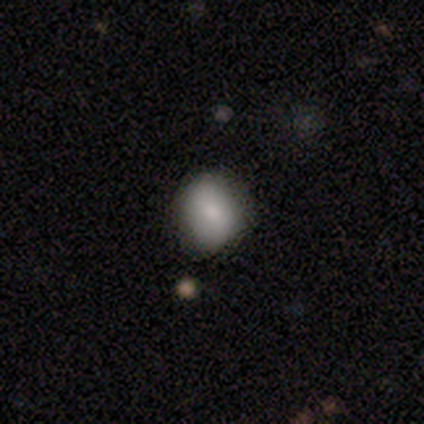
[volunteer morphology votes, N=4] Volunteers were most divided on "merging" (2-way tie): none: 50%, minor disturbance: 50%, major disturbance: 0%, merger: 0%. More confident: how rounded — round (100%); smooth or featured — smooth (75%).